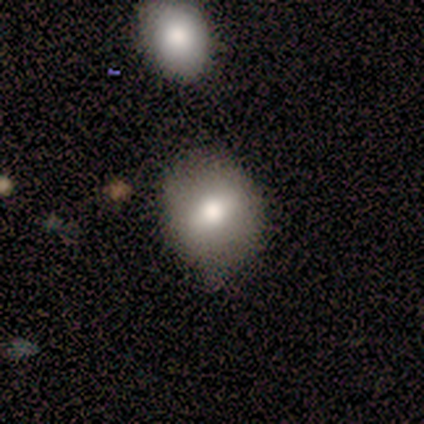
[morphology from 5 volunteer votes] smooth_or_featured: smooth (p=0.80) [alt: featured or disk p=0.20]
how_rounded: in between (p=1.00)
merging: none (p=0.80) [alt: minor disturbance p=0.20]